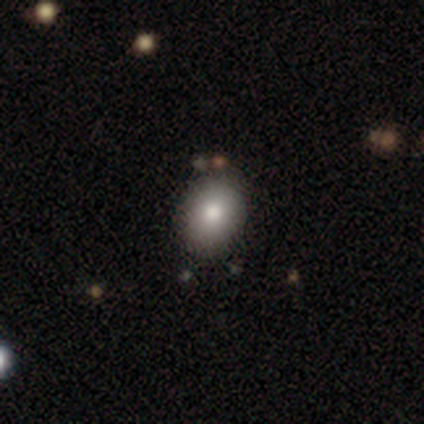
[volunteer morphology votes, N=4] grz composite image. It shows a smooth galaxy with no disk features (100%) that is in between round and cigar-shaped (75%). Merging: none (100%).